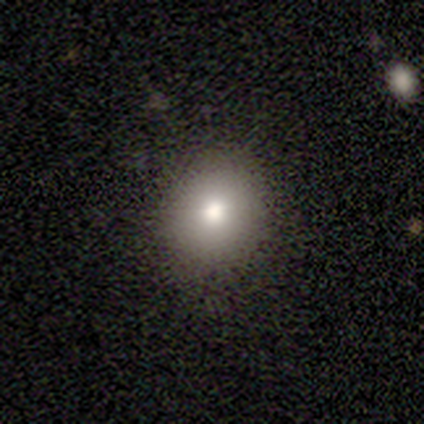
Smooth or featured?
  - smooth: 80% *
  - featured or disk: 20%
  - star or artifact: 0%
How rounded?
  - round: 75% *
  - in between: 25%
  - cigar-shaped: 0%
Merging?
  - none: 60% *
  - minor disturbance: 40%
  - major disturbance: 0%
  - merger: 0%